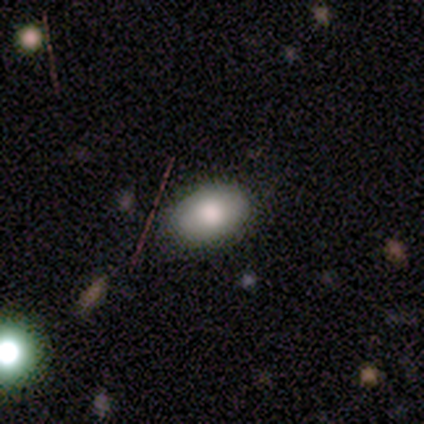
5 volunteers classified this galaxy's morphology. A smooth galaxy with no disk features (60%) that is in between round and cigar-shaped (67%).

Vote fractions:
- Smooth or featured? smooth: 60% / featured or disk: 40% / star or artifact: 0%
- How rounded? in between: 67% / round: 33% / cigar-shaped: 0%
- Merging? none: 100% / minor disturbance: 0% / major disturbance: 0% / merger: 0%